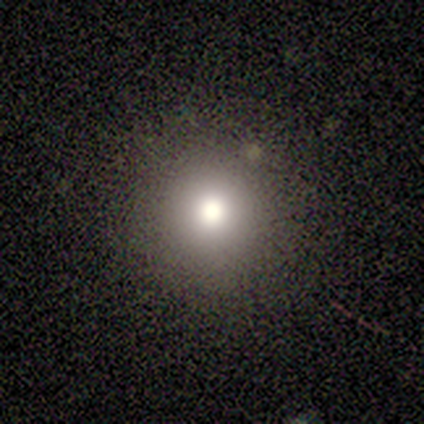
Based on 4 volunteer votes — Smooth or featured: smooth — 100%
How rounded: round — 100%
Merging: none — 100%